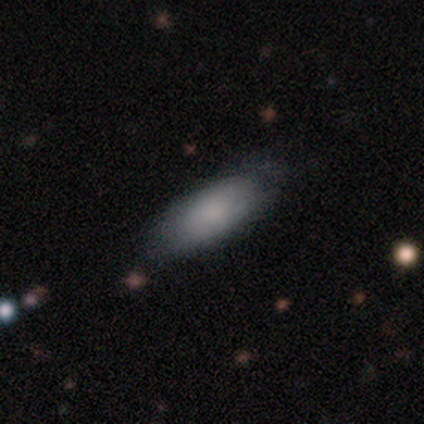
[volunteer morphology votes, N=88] type=smooth (75%); roundness=in between (73%); merging=none (75%).